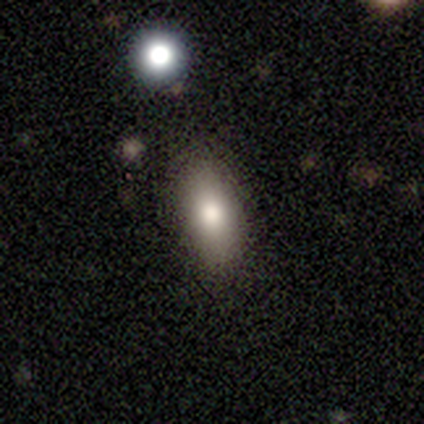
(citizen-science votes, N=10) This is clearly a smooth galaxy (80%). How rounded: clearly in between (88%). Merging: clearly none (100%).